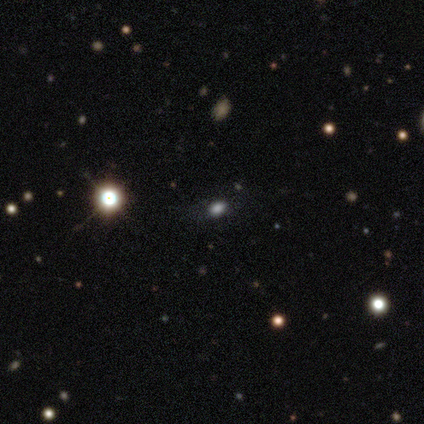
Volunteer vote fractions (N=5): Smooth or featured? 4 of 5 (80%) said smooth. How rounded? 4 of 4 (100%) said in between. Merging? 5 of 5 (100%) said none.